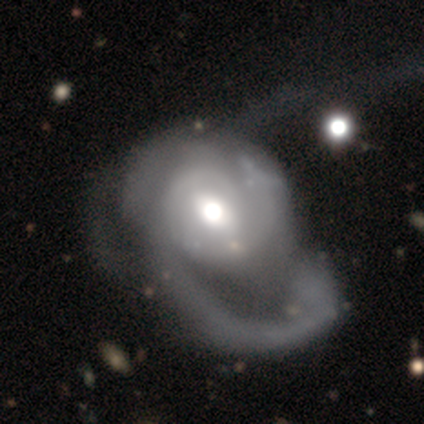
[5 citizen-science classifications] Smooth or featured?
  - featured or disk: 60% *
  - smooth: 20%
  - star or artifact: 20%
Edge-on disk?
  - no: 100% *
  - yes: 0%
Bar?
  - no: 100% *
  - strong: 0%
  - weak: 0%
Spiral arms?
  - yes: 100% *
  - no: 0%
Spiral winding?
  - medium: 100% *
  - tight: 0%
  - loose: 0%
Spiral arm count?
  - can't tell: 67% *
  - 1: 33%
  - 2: 0%
  - 3: 0%
  - 4: 0%
  - more than 4: 0%
Bulge size?
  - large: 33% * (tied)
  - moderate: 33% * (tied)
  - small: 33% * (tied)
  - dominant: 0%
  - none: 0%
Merging?
  - major disturbance: 50% *
  - none: 25%
  - merger: 25%
  - minor disturbance: 0%